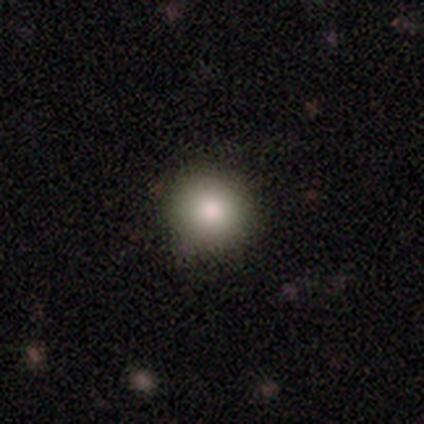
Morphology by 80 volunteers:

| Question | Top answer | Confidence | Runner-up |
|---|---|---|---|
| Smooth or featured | smooth | 82% | star or artifact (11%) |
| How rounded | round | 97% | in between (3%) |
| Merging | none | 82% | minor disturbance (17%) |